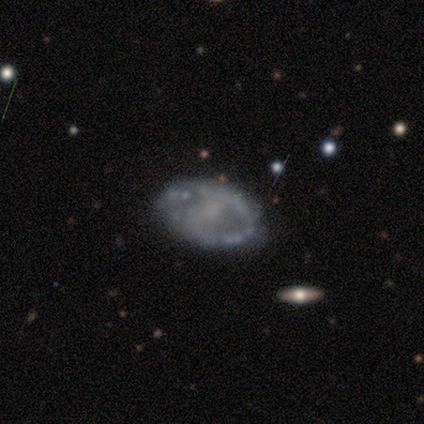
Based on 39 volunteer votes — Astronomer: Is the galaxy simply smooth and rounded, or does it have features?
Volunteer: featured or disk — 74%.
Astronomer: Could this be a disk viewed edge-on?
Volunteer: no — 90%.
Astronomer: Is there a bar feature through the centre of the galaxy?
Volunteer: no — 50% (runner-up: weak, 46%).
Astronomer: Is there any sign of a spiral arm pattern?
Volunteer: no — 62% (runner-up: yes, 38%).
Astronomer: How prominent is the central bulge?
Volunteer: small — 50% (runner-up: none, 42%).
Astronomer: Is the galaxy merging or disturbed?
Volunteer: none — 69%.